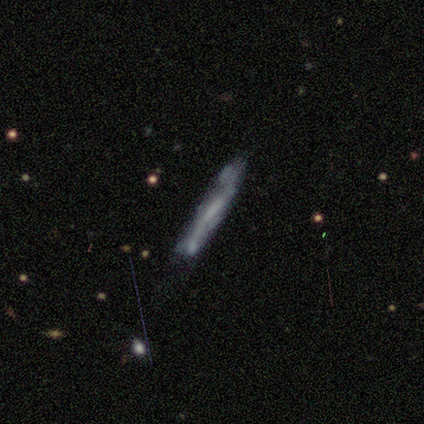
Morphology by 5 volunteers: This is clearly a featured or disk galaxy (80%). It is likely viewed edge-on (75%). Edge-on bulge: likely none (67%). Merging: likely none (60%).